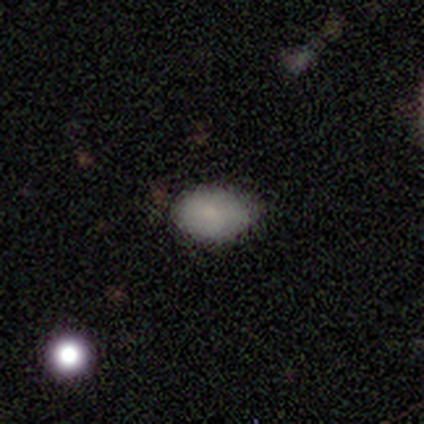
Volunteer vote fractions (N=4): A smooth galaxy with no disk features (75%) that is in between round and cigar-shaped (67%).

Vote fractions:
- Smooth or featured? smooth: 75% / featured or disk: 25% / star or artifact: 0%
- How rounded? in between: 67% / round: 33% / cigar-shaped: 0%
- Merging? none: 100% / minor disturbance: 0% / major disturbance: 0% / merger: 0%